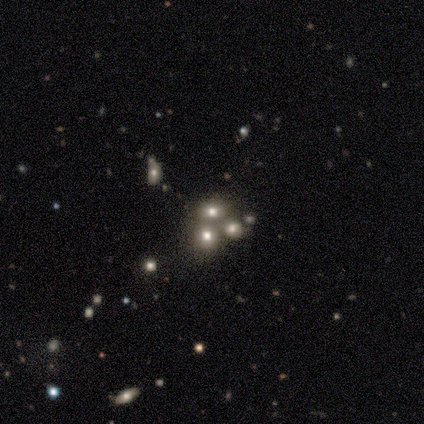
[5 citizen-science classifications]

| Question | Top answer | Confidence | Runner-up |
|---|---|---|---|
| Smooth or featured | featured or disk | 60% | smooth (20%) |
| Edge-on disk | no | 100% | — |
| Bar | no | 100% | — |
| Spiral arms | no | 100% | — |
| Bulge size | dominant | 33% | tied: large (33%), moderate (33%) |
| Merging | none | 50% | tied: merger (50%) |